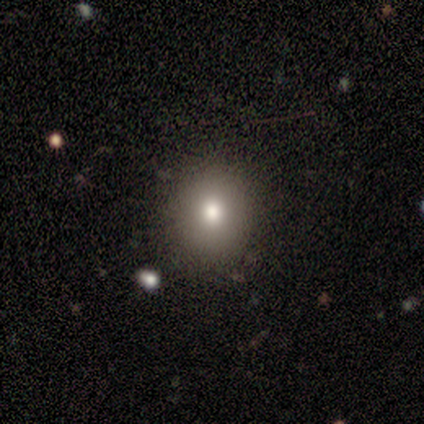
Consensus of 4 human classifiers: Smooth or featured: smooth — 75% (featured or disk — 25%)
How rounded: round — 100%
Merging: none — 75% (major disturbance — 25%)